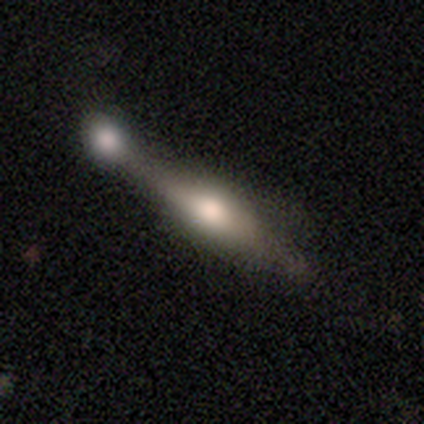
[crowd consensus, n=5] Volunteers were most divided on "merging": merger: 60%, none: 20%, minor disturbance: 20%, major disturbance: 0%. More confident: edge-on disk — yes (100%); edge-on bulge — rounded (100%); smooth or featured — featured or disk (80%).